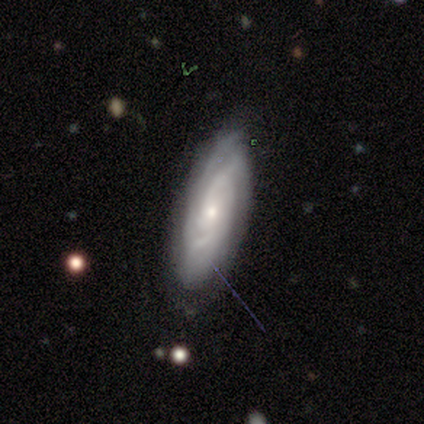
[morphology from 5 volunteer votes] Overall: featured or disk (100%). Edge-on disk: no (100%). Bar: no (60%; weak 40%). Spiral arms: yes (100%). Spiral arm count: can't tell (60%; 2 20%). Spiral winding: tight (100%). Bulge size: small (100%). Merging: none (60%; minor disturbance 40%).